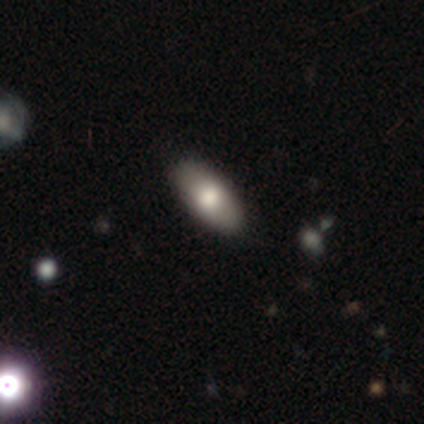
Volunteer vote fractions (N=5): Smooth or featured?
  - smooth: 80% *
  - star or artifact: 20%
  - featured or disk: 0%
How rounded?
  - in between: 100% *
  - round: 0%
  - cigar-shaped: 0%
Merging?
  - none: 75% *
  - minor disturbance: 25%
  - major disturbance: 0%
  - merger: 0%